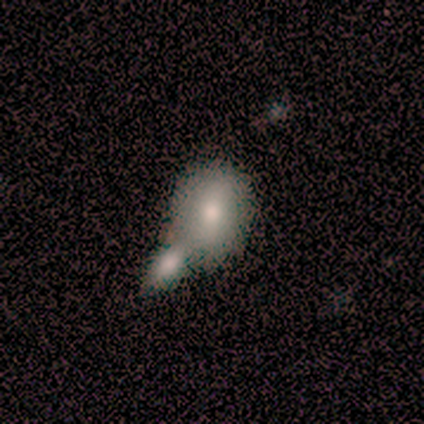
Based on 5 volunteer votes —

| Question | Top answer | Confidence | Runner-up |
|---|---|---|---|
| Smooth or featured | smooth | 80% | featured or disk (20%) |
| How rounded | in between | 75% | round (25%) |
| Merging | minor disturbance | 40% | tied: merger (40%) |